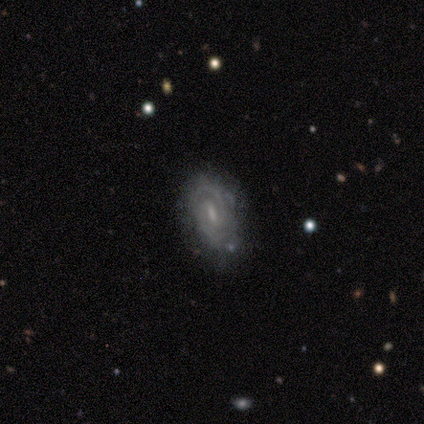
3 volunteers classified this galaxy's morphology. A featured or disk galaxy (100%) with a weak bar (100%), tight (33%, tied with medium and loose) spiral arms (100%) and a small central bulge (67%). Merging: none (100%).